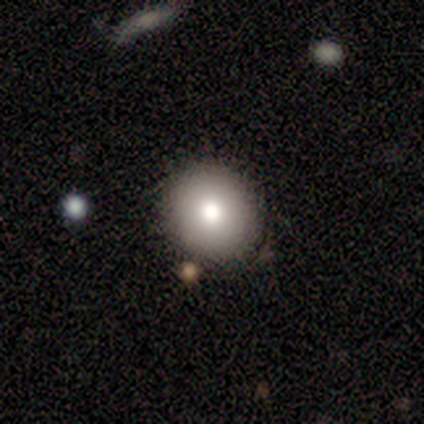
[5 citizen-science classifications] This appears to be a smooth galaxy with no disk features (80%) that is round (75%). Merging: none (100%).